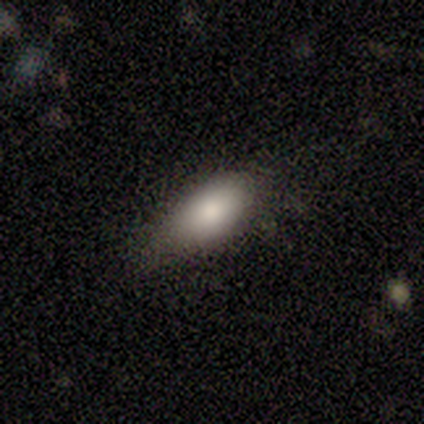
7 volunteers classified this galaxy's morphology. This appears to be a smooth galaxy with no disk features (71%) that is in between round and cigar-shaped (100%). Merging: none (71%).